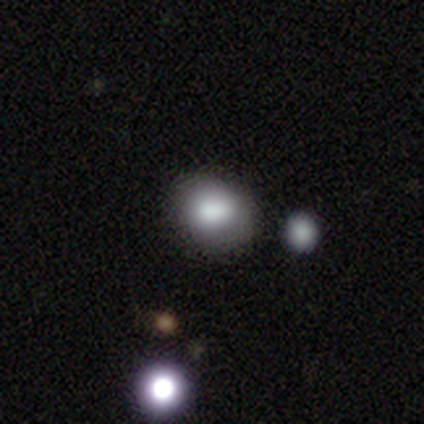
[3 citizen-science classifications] Morphology: type=smooth (100%); roundness=in between (67%); merging=minor disturbance (100%).